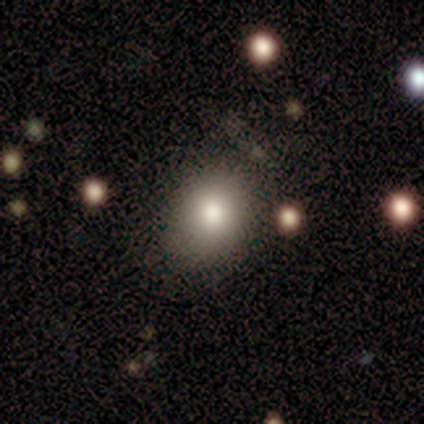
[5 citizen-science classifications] smooth 100%, featured or disk 0%, star or artifact 0%. Down the decision tree: how rounded — in between (60%); merging — none (100%).